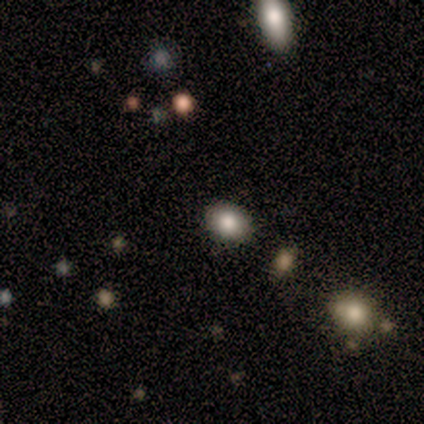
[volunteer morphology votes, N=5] smooth-or-featured: smooth: 80% | star or artifact: 20% | featured or disk: 0%
  how-rounded: round: 50% (tied) | in between: 50% (tied) | cigar-shaped: 0%
  merging: none: 100% | minor disturbance: 0% | major disturbance: 0% | merger: 0%